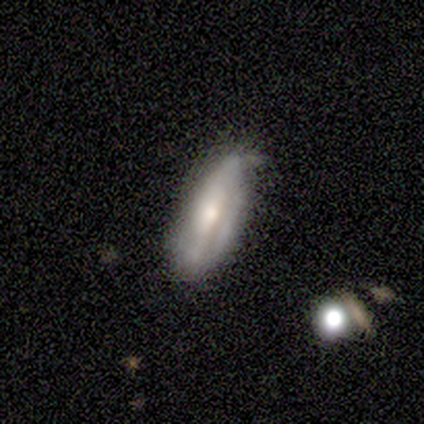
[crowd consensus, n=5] Smooth or featured? 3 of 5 (60%) said smooth. How rounded? 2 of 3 (67%) said cigar-shaped. Merging? 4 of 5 (80%) said none.